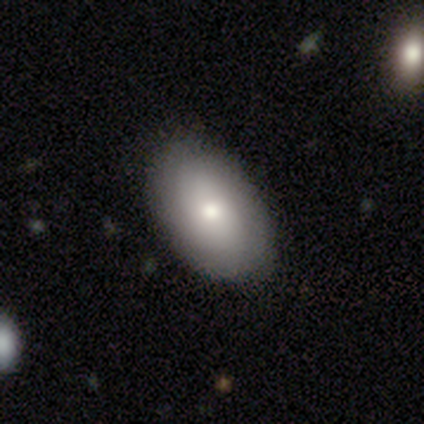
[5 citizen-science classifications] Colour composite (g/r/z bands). It shows a smooth galaxy with no disk features (100%) that is in between round and cigar-shaped (100%). Merging: none (100%).